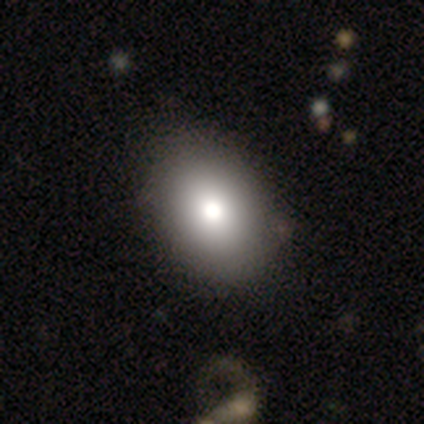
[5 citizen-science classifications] A smooth galaxy with no disk features (60%) that is in between round and cigar-shaped (67%).

Vote fractions:
- Smooth or featured? smooth: 60% / featured or disk: 40% / star or artifact: 0%
- How rounded? in between: 67% / round: 33% / cigar-shaped: 0%
- Merging? none: 80% / minor disturbance: 20% / major disturbance: 0% / merger: 0%